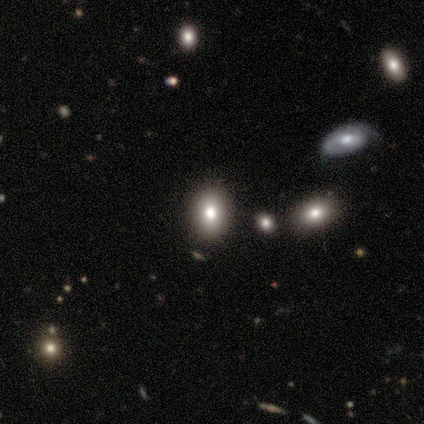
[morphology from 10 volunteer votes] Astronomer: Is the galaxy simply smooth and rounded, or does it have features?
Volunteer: smooth — 70%.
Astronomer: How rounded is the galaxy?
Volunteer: in between — 57% (runner-up: round, 43%).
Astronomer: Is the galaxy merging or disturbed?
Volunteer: none — 88%.